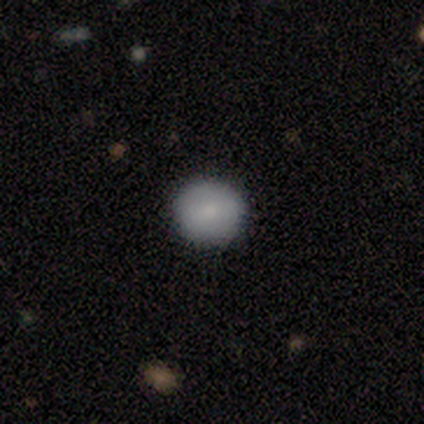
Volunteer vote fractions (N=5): smooth-or-featured: smooth: 100% | featured or disk: 0% | star or artifact: 0%
  how-rounded: round: 100% | in between: 0% | cigar-shaped: 0%
  merging: none: 100% | minor disturbance: 0% | major disturbance: 0% | merger: 0%